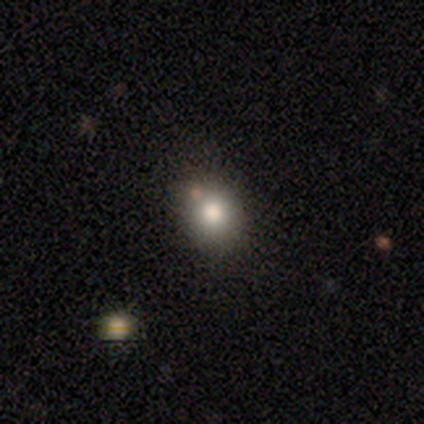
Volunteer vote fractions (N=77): A smooth galaxy with no disk features (79%) that is round (82%).

Vote fractions:
- Smooth or featured? smooth: 79% / star or artifact: 12% / featured or disk: 9%
- How rounded? round: 82% / in between: 18% / cigar-shaped: 0%
- Merging? none: 47% / merger: 13% / minor disturbance: 4% / major disturbance: 0%